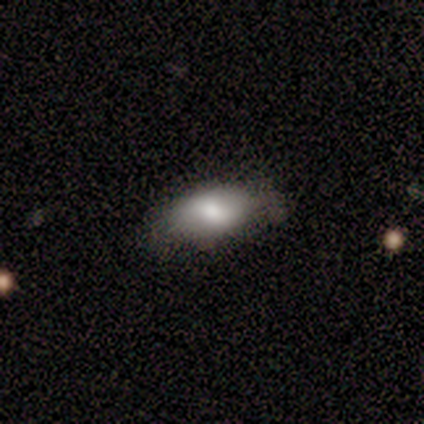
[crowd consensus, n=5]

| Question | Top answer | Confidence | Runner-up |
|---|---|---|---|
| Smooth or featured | smooth | 80% | featured or disk (20%) |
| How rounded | in between | 75% | cigar-shaped (25%) |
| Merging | none | 100% | — |